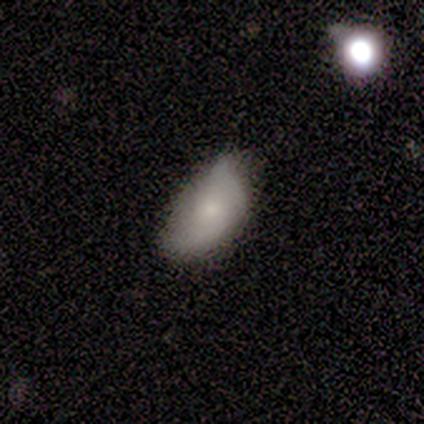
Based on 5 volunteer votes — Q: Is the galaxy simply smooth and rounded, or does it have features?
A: smooth — 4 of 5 (80%).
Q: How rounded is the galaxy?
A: in between — 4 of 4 (100%).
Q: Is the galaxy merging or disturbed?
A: none — 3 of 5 (60%).